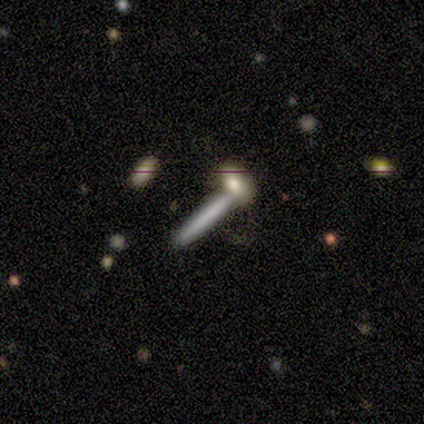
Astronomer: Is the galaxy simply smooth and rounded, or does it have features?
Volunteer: smooth — 69%.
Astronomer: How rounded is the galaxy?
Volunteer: cigar-shaped — 93%.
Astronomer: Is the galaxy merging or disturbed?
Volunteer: none — 47% (runner-up: merger, 33%).